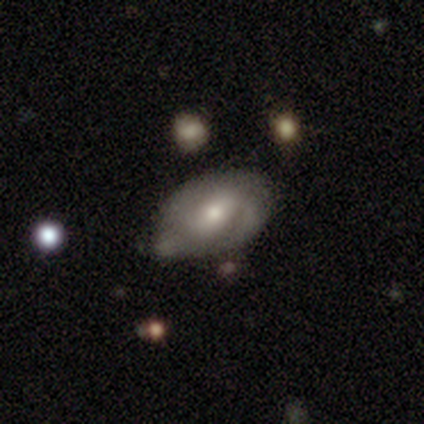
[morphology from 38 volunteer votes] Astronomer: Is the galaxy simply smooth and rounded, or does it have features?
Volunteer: featured or disk — 55% (runner-up: smooth, 45%).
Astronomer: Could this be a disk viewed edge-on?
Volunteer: no — 100%.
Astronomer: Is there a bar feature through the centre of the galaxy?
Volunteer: weak — 43% (runner-up: strong, 29%).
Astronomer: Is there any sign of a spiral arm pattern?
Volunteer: yes — 76%.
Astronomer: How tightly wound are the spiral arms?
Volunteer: tight — 44% (runner-up: medium, 38%).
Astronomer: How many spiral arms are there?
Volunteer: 2 — 44%, tied with can't tell at 44%.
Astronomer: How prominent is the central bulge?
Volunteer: moderate — 52% (runner-up: small, 48%).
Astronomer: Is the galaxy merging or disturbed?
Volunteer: none — 58%.